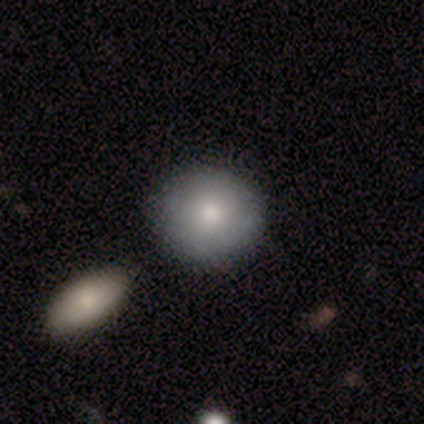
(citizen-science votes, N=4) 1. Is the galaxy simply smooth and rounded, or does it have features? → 50% smooth (tied), 50% featured or disk (tied), 0% star or artifact.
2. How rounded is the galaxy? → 100% round, 0% in between, 0% cigar-shaped.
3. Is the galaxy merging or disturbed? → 75% none, 25% merger, 0% minor disturbance, 0% major disturbance.